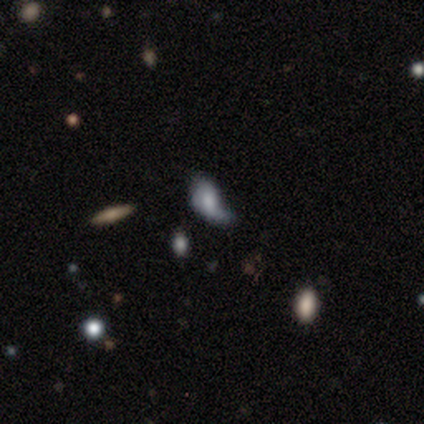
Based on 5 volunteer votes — This is marginally a smooth galaxy (40%, tied with star or artifact). How rounded: clearly in between (100%). Merging: likely major disturbance (67%).